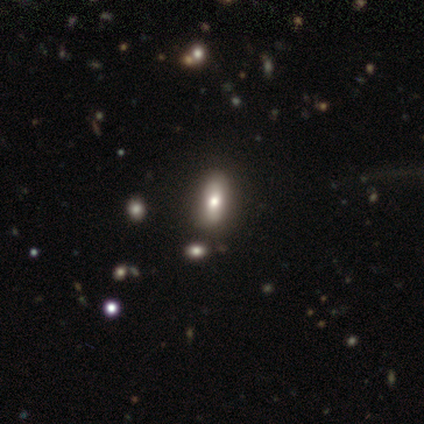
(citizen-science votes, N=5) Smooth or featured: featured or disk — 60% (smooth — 40%)
Edge-on disk: no — 100%
Bar: no — 67% (weak — 33%)
Spiral arms: no — 100%
Bulge size: moderate — 67% (large — 33%)
Merging: none — 80% (minor disturbance — 20%)